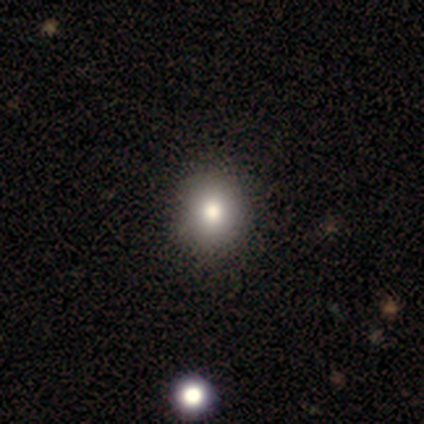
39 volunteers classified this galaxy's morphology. A smooth galaxy with no disk features (82%) that is round (59%).

Vote fractions:
- Smooth or featured? smooth: 82% / featured or disk: 13% / star or artifact: 5%
- How rounded? round: 59% / in between: 41% / cigar-shaped: 0%
- Merging? none: 68% / merger: 8% / minor disturbance: 3% / major disturbance: 0%